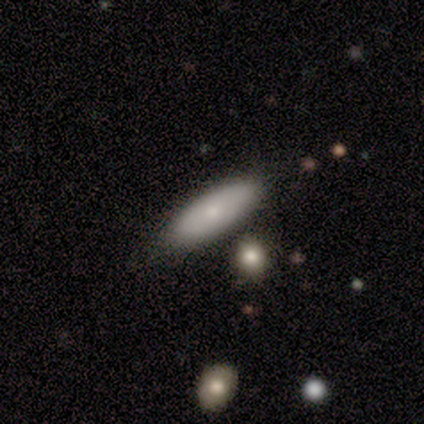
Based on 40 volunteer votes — Volunteers were most divided on "how rounded": in between: 59%, cigar-shaped: 38%, round: 3%. More confident: smooth or featured — smooth (80%); merging — none (79%).